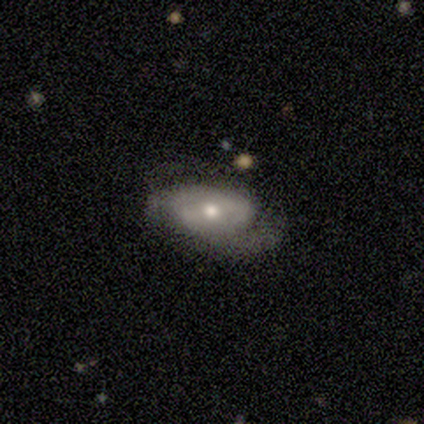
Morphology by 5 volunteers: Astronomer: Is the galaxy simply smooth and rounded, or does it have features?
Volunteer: featured or disk — 60% (runner-up: smooth, 40%).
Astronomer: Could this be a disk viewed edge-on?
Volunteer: no — 100%.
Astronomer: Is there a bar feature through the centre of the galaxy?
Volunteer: weak — 67%.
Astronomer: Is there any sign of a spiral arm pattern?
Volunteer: yes — 100%.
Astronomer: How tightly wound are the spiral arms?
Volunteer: tight — 67%.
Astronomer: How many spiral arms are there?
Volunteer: can't tell — 67%.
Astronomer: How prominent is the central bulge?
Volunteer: moderate — 67%.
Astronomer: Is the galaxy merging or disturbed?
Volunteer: none — 80%.